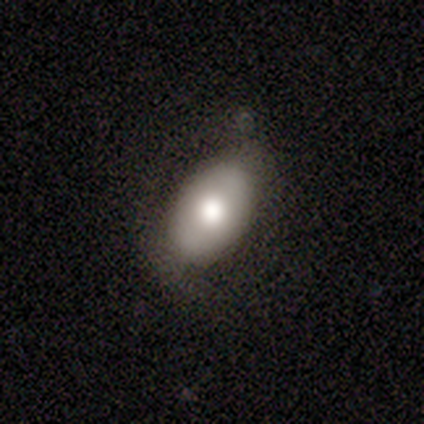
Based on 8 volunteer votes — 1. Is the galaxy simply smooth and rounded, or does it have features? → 50% smooth (tied), 50% featured or disk (tied), 0% star or artifact.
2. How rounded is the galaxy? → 75% in between, 25% round, 0% cigar-shaped.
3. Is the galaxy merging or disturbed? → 50% none (tied), 50% minor disturbance (tied), 0% major disturbance, 0% merger.